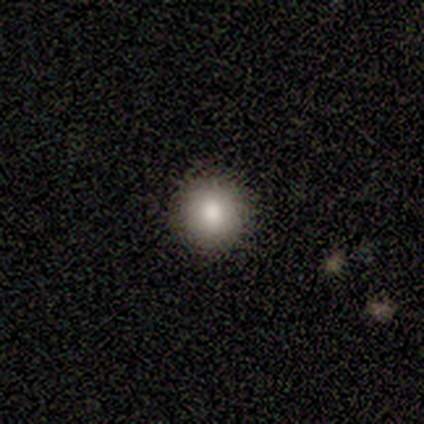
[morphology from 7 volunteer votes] Q: Smooth or featured?
A: smooth (100%)
Q: How rounded?
A: round (100%)
Q: Merging?
A: none (100%)